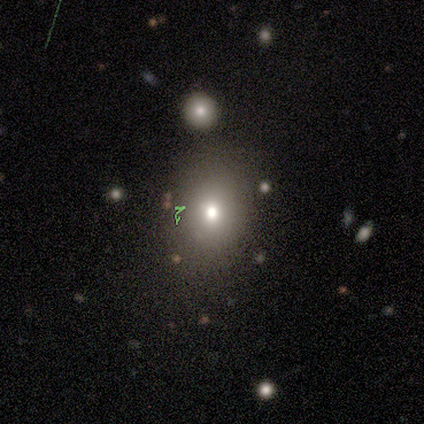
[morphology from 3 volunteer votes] Smooth or featured?
  - smooth: 100% *
  - featured or disk: 0%
  - star or artifact: 0%
How rounded?
  - in between: 67% *
  - round: 33%
  - cigar-shaped: 0%
Merging?
  - none: 33% * (tied)
  - minor disturbance: 33% * (tied)
  - major disturbance: 33% * (tied)
  - merger: 0%